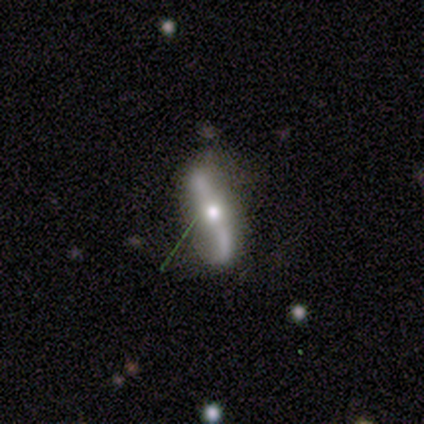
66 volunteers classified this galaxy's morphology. A featured or disk galaxy (73%) with no bar (55%), 2 (92%) loose (92%) spiral arms (81%) and a moderate central bulge (87%). Merging: none (58%).